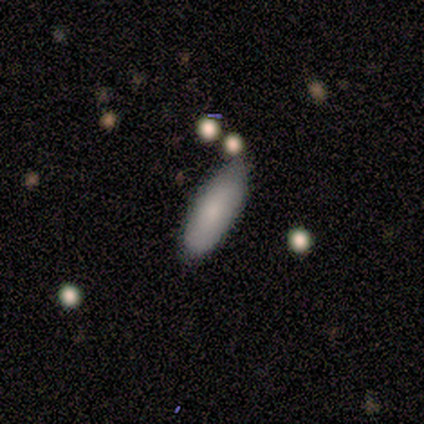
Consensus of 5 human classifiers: Smooth or featured? smooth (80%)
How rounded? in between (75%)
Merging? none (80%)